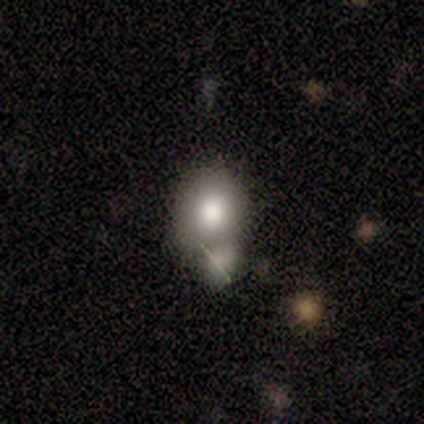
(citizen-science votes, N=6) A smooth galaxy with no disk features (100%) that is in between round and cigar-shaped (67%). Merging: none (33%, tied with major disturbance).